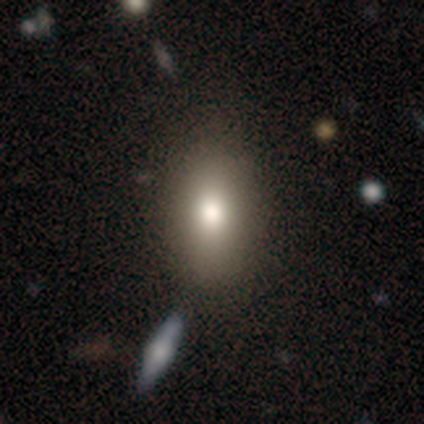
This is clearly a smooth galaxy (90%). How rounded: clearly in between (86%). Merging: likely none (72%).